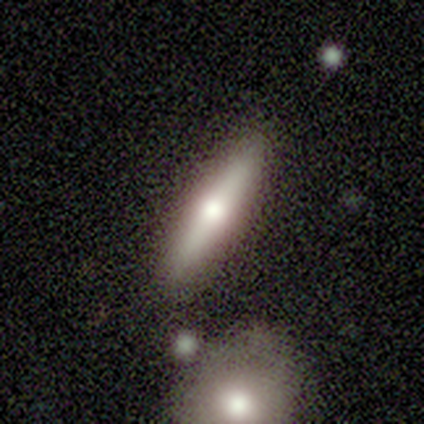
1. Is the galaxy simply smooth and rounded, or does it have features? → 60% featured or disk, 40% smooth, 0% star or artifact.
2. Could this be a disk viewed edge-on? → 100% yes, 0% no.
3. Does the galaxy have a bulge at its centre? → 100% rounded, 0% boxy, 0% none.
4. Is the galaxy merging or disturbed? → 100% none, 0% minor disturbance, 0% major disturbance, 0% merger.